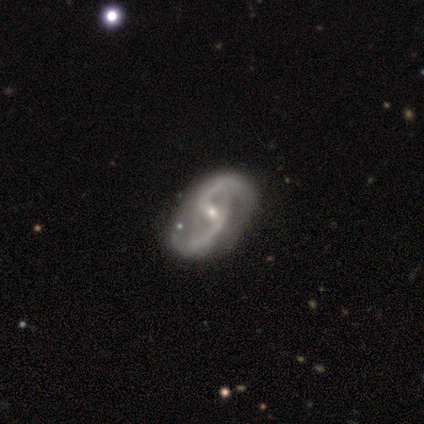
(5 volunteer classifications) Overall: featured or disk (100%). Edge-on disk: no (100%). Bar: weak (40%, tied with no). Spiral arms: yes (100%). Spiral arm count: 2 (100%). Spiral winding: medium (80%). Bulge size: moderate (60%; small 40%). Merging: none (80%).